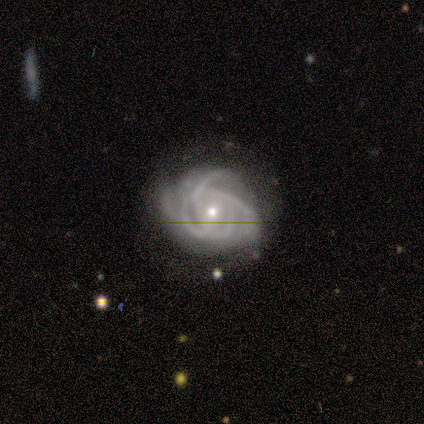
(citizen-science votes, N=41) Smooth or featured?
  - featured or disk: 100% *
  - smooth: 0%
  - star or artifact: 0%
Edge-on disk?
  - no: 100% *
  - yes: 0%
Bar?
  - no: 71% *
  - weak: 22%
  - strong: 7%
Spiral arms?
  - yes: 98% *
  - no: 2%
Spiral winding?
  - tight: 60% *
  - medium: 28%
  - loose: 12%
Spiral arm count?
  - can't tell: 50% *
  - 4: 28%
  - 3: 15%
  - more than 4: 8%
  - 1: 0%
  - 2: 0%
Bulge size?
  - small: 54% *
  - moderate: 46%
  - dominant: 0%
  - large: 0%
  - none: 0%
Merging?
  - none: 51% *
  - minor disturbance: 22%
  - major disturbance: 17%
  - merger: 10%